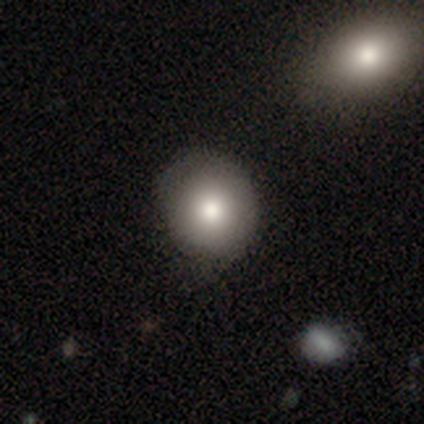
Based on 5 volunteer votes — Smooth or featured?
  - smooth: 100% *
  - featured or disk: 0%
  - star or artifact: 0%
How rounded?
  - round: 100% *
  - in between: 0%
  - cigar-shaped: 0%
Merging?
  - none: 60% *
  - minor disturbance: 40%
  - major disturbance: 0%
  - merger: 0%